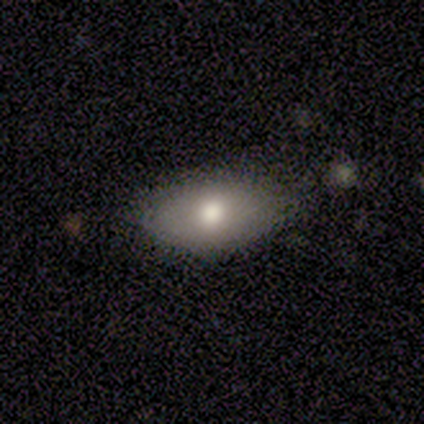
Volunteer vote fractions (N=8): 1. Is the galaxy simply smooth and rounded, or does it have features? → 62% smooth, 38% featured or disk, 0% star or artifact.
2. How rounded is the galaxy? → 80% in between, 20% round, 0% cigar-shaped.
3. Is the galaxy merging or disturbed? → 88% none, 12% minor disturbance, 0% major disturbance, 0% merger.